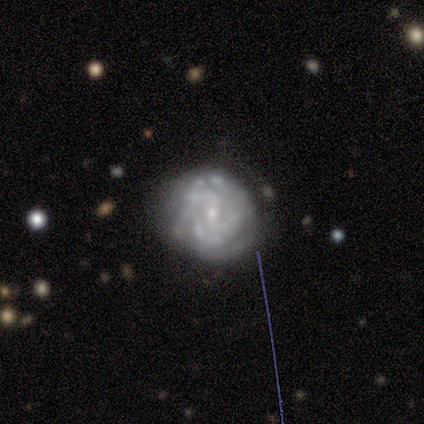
Volunteers were most divided on "spiral arm count" (3-way tie): 2: 33%, 4: 33%, can't tell: 33%, 1: 0%, 3: 0%, more than 4: 0%. More confident: edge-on disk — no (100%); spiral arms — yes (100%); spiral winding — tight (100%); bulge size — small (100%); merging — none (100%); smooth or featured — featured or disk (75%); bar — weak (67%).